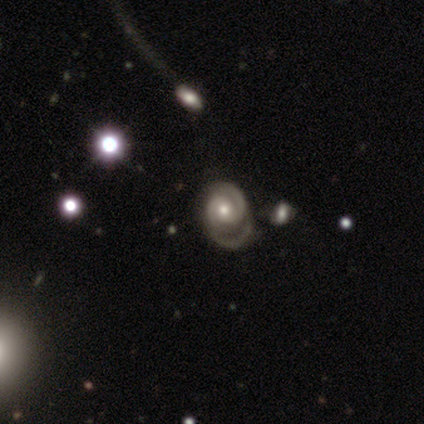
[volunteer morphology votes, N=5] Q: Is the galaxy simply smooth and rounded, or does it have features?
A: featured or disk — 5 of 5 (100%).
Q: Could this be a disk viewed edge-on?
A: no — 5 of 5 (100%).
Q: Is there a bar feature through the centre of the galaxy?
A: no — 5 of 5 (100%).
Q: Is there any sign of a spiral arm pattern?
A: yes — 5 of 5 (100%).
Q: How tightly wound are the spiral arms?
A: medium — 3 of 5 (60%).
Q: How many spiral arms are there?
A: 2 — 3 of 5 (60%).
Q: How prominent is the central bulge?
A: moderate — 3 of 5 (60%).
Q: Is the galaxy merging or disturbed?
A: none — 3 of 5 (60%).